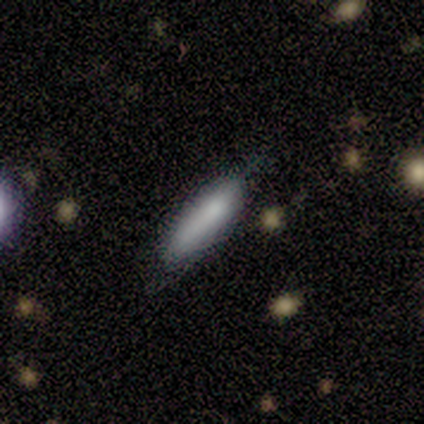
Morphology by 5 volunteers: type=smooth (100%); roundness=cigar-shaped (100%); merging=none (60%).